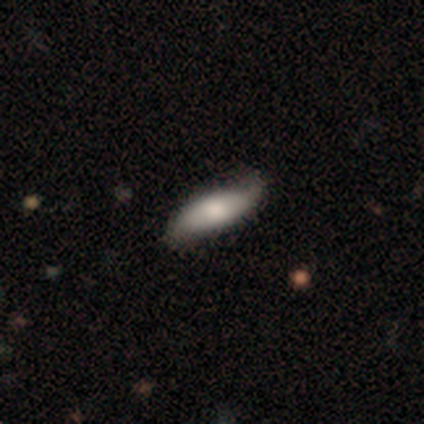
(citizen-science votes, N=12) smooth_or_featured: smooth (p=0.58) [alt: featured or disk p=0.42]
how_rounded: in between (p=0.86) [alt: cigar-shaped p=0.14]
merging: minor disturbance (p=0.50) [alt: none p=0.42]